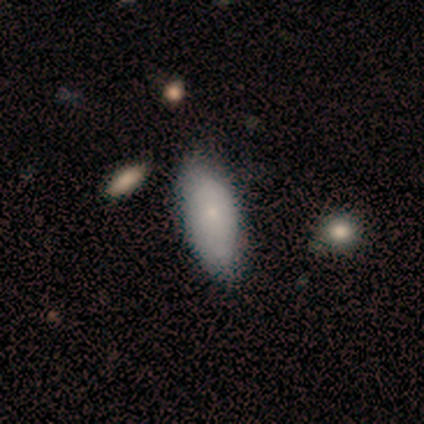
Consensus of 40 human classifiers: smooth_or_featured: smooth (p=0.65) [alt: featured or disk p=0.30]
how_rounded: in between (p=0.92) [alt: cigar-shaped p=0.08]
merging: none (p=0.53) [alt: minor disturbance p=0.16]